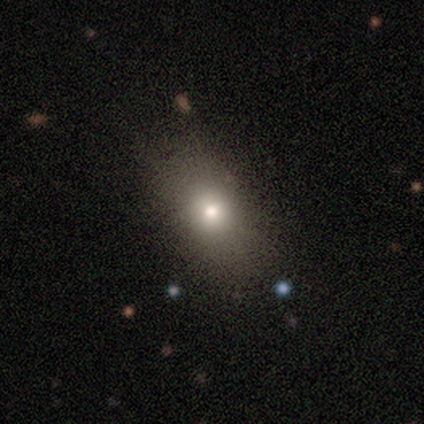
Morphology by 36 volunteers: Volunteers were most divided on "how rounded": in between: 68%, round: 28%, cigar-shaped: 4%. More confident: smooth or featured — smooth (69%); merging — none (68%).